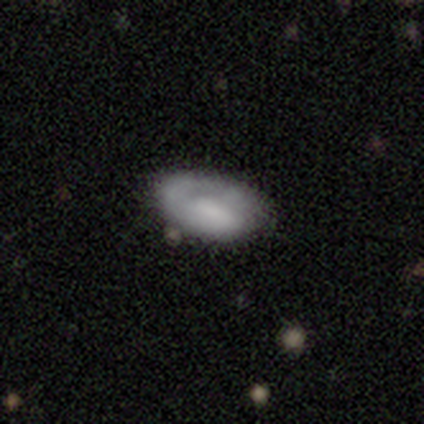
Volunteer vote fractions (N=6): Smooth or featured: featured or disk — 50% (smooth — 33%)
Edge-on disk: no — 100%
Bar: weak — 67% (strong — 33%)
Spiral arms: yes — 67% (no — 33%)
Spiral winding: tight — 100%
Spiral arm count: 1 — 100%
Bulge size: none — 67% (large — 33%)
Merging: none — 40% (tied with major disturbance — 40%)